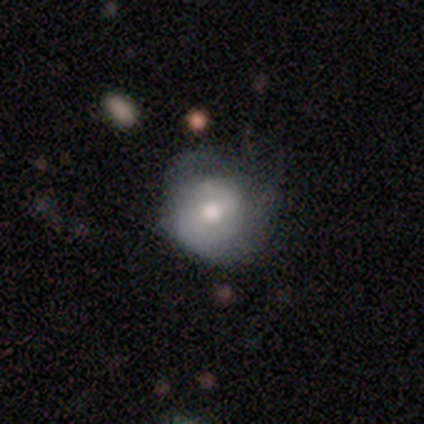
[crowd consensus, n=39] Smooth or featured? 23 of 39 (59%) said smooth. How rounded? 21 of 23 (91%) said round. Merging? 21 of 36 (58%) said none.